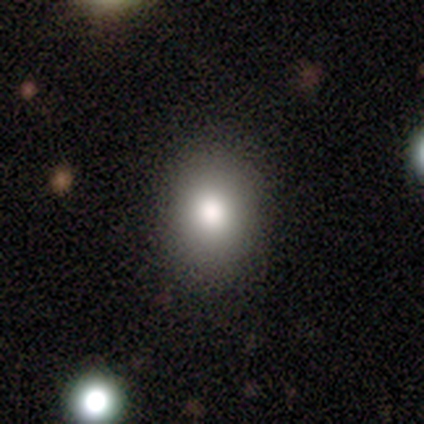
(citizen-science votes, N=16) smooth-or-featured: smooth: 88% | featured or disk: 6% | star or artifact: 6%
  how-rounded: in between: 64% | round: 36% | cigar-shaped: 0%
  merging: none: 87% | minor disturbance: 7% | major disturbance: 7% | merger: 0%